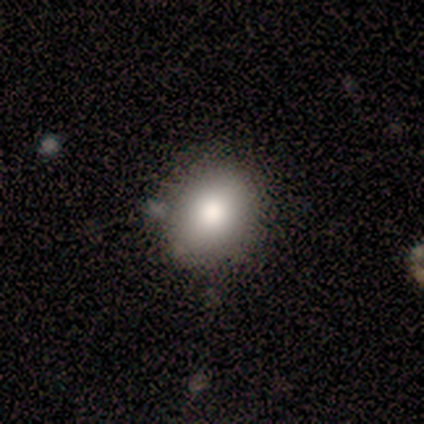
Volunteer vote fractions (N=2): Smooth or featured? 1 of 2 (50%, tied with star or artifact) said smooth. How rounded? 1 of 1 (100%) said in between. Merging? 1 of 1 (100%) said minor disturbance.